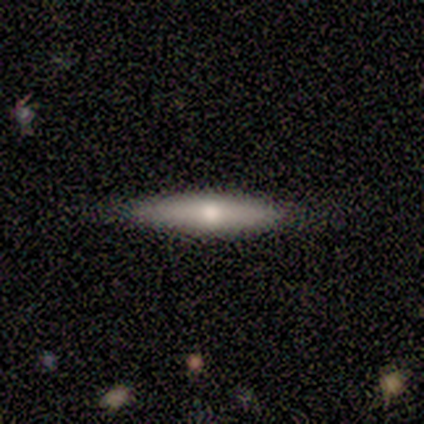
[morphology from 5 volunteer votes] Q: Smooth or featured?
A: smooth (80%); runner-up: featured or disk (20%)
Q: How rounded?
A: cigar-shaped (100%)
Q: Merging?
A: none (100%)